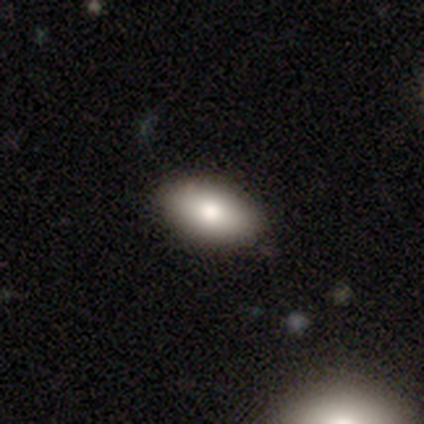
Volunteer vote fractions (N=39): Morphology: type=smooth (85%); roundness=in between (94%); merging=none (95%).